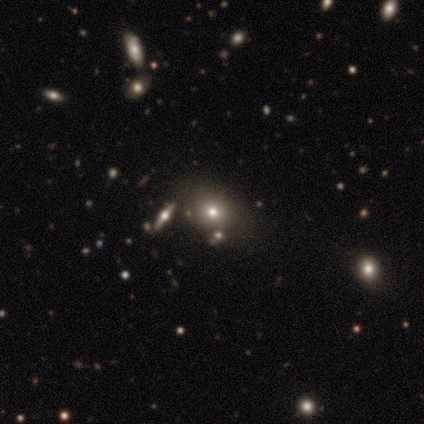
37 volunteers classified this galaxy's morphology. A smooth galaxy with no disk features (59%) that is round (73%).

Vote fractions:
- Smooth or featured? smooth: 59% / star or artifact: 24% / featured or disk: 16%
- How rounded? round: 73% / in between: 27% / cigar-shaped: 0%
- Merging? none: 71% / minor disturbance: 21% / major disturbance: 4% / merger: 4%